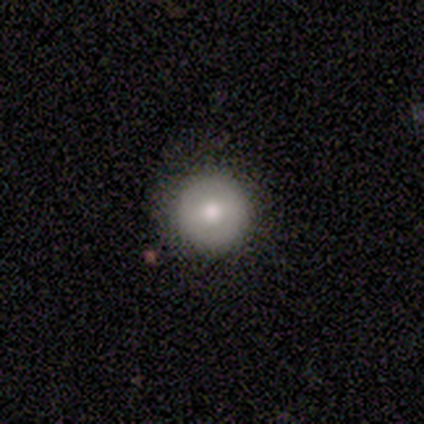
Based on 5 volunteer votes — A smooth galaxy with no disk features (80%) that is round (100%). Merging: none (100%).